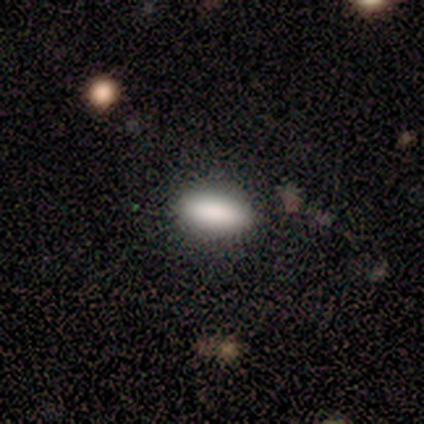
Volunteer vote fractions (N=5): Overall: smooth (100%). How rounded: in between (100%). Merging: none (80%).